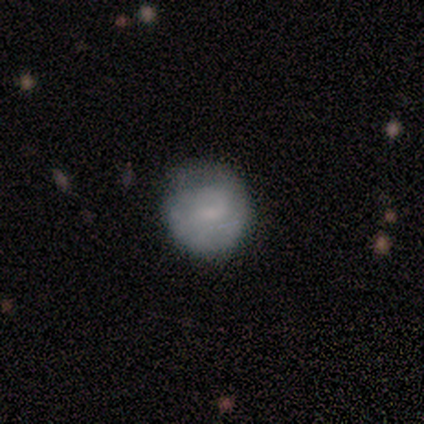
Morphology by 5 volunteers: Overall: smooth (60%; featured or disk 40%). How rounded: round (100%). Merging: none (100%).